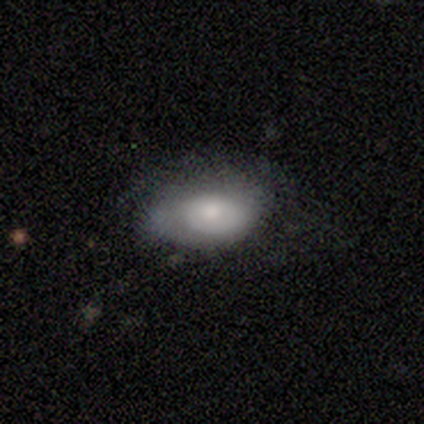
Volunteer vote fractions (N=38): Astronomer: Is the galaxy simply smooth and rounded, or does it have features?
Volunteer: smooth — 66%.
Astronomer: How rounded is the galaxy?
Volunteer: in between — 100%.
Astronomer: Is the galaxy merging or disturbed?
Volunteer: none — 49% (runner-up: minor disturbance, 31%).